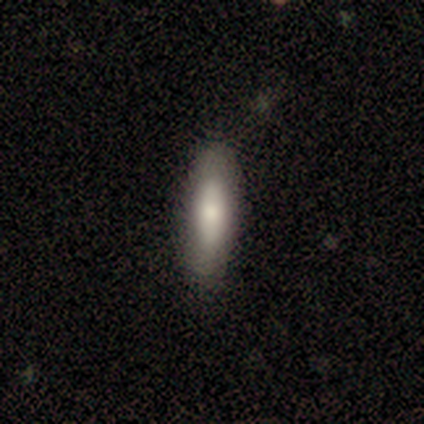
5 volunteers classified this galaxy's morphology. A smooth galaxy with no disk features (60%) that is cigar-shaped (100%).

Vote fractions:
- Smooth or featured? smooth: 60% / featured or disk: 40% / star or artifact: 0%
- How rounded? cigar-shaped: 100% / round: 0% / in between: 0%
- Merging? none: 60% / minor disturbance: 40% / major disturbance: 0% / merger: 0%